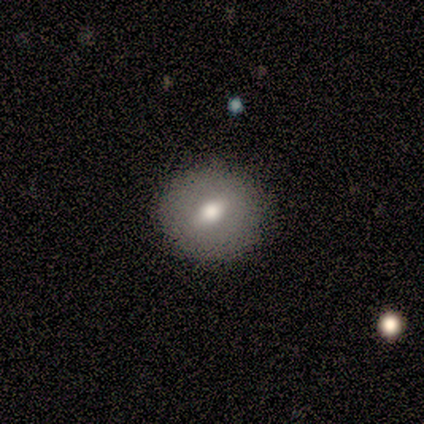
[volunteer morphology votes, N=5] featured or disk 60%, smooth 20%, star or artifact 20%. Down the decision tree: edge-on disk — no (100%); bar — weak (67%); spiral arms — no (100%); bulge size — moderate (67%); merging — none (100%).